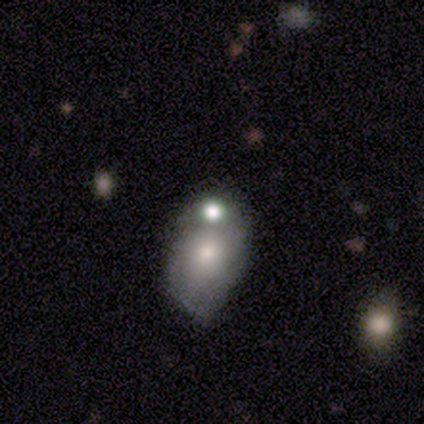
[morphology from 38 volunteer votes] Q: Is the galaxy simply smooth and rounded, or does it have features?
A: smooth — 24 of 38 (63%).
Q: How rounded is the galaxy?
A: in between — 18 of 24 (75%).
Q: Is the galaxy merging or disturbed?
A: merger — 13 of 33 (39%).